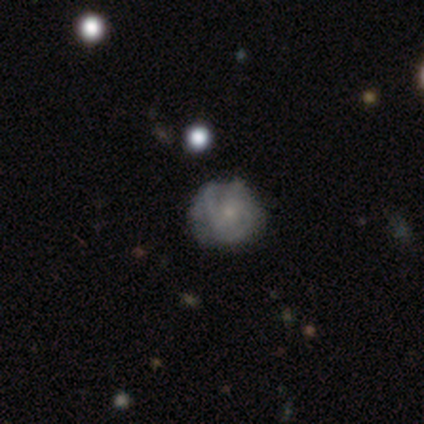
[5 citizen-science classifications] Morphology: type=smooth (60%); roundness=round (67%); merging=minor disturbance (60%).